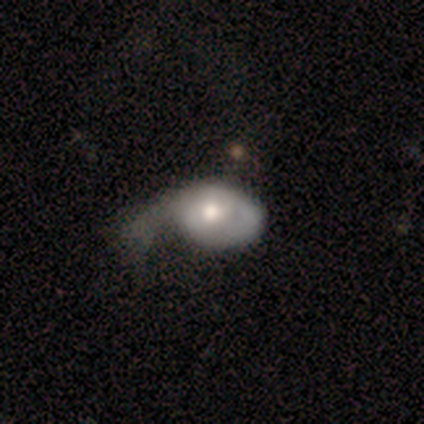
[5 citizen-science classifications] Smooth or featured?
  - smooth: 80% *
  - featured or disk: 20%
  - star or artifact: 0%
How rounded?
  - in between: 100% *
  - round: 0%
  - cigar-shaped: 0%
Merging?
  - major disturbance: 60% *
  - minor disturbance: 40%
  - none: 0%
  - merger: 0%